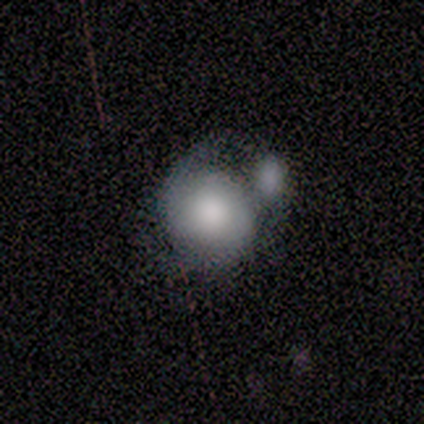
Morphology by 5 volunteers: smooth_or_featured: featured or disk (p=0.60) [alt: smooth p=0.40]
disk_edge_on: no (p=1.00)
bar: no (p=1.00)
has_spiral_arms: yes (p=1.00)
spiral_winding: medium (p=0.67) [alt: tight p=0.33]
spiral_arm_count: 2 (p=0.67) [alt: 1 p=0.33]
bulge_size: large (p=1.00)
merging: merger (p=0.60) [alt: none p=0.20]